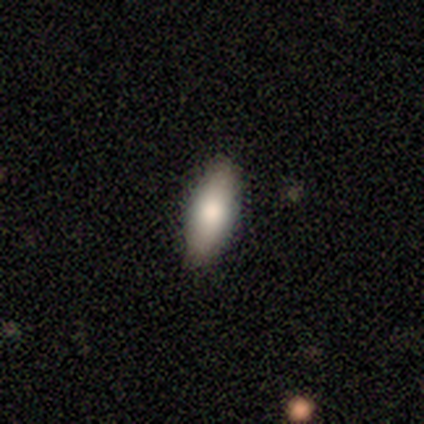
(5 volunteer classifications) Smooth or featured?
  - smooth: 100% *
  - featured or disk: 0%
  - star or artifact: 0%
How rounded?
  - in between: 60% *
  - cigar-shaped: 40%
  - round: 0%
Merging?
  - none: 100% *
  - minor disturbance: 0%
  - major disturbance: 0%
  - merger: 0%